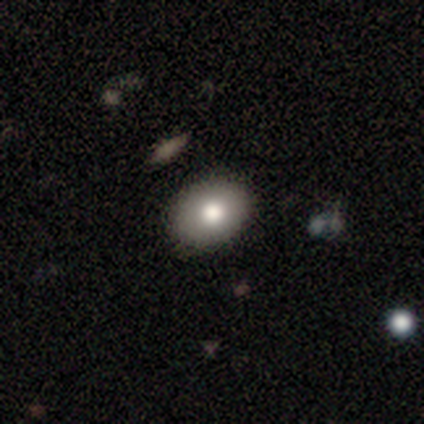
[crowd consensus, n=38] Smooth or featured? 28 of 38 (74%) said smooth. How rounded? 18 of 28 (64%) said in between. Merging? 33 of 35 (94%) said none.